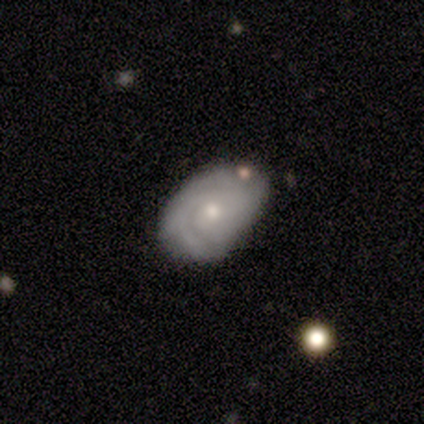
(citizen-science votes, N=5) This is clearly a featured or disk galaxy (80%). It is clearly not viewed edge-on (100%). Bar: likely no (75%). Spiral arm pattern: clearly yes (100%). Spiral arm count: possibly 3 (50%). Spiral winding: likely medium (75%). Central bulge: possibly moderate (50%, tied with small). Merging: likely none (60%).